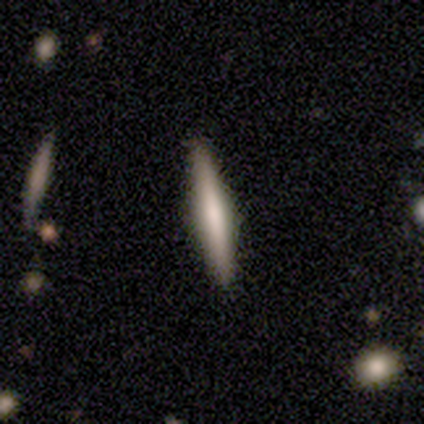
Volunteers were most divided on "merging": none: 75%, major disturbance: 25%, minor disturbance: 0%, merger: 0%. More confident: smooth or featured — smooth (100%); how rounded — cigar-shaped (100%).